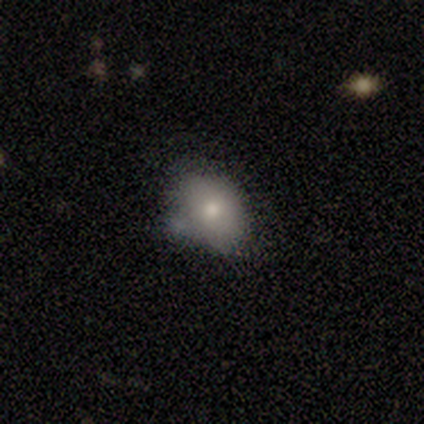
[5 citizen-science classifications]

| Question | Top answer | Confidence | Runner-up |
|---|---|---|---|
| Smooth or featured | smooth | 40% | tied: featured or disk (40%) |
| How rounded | in between | 100% | — |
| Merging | none | 75% | merger (25%) |